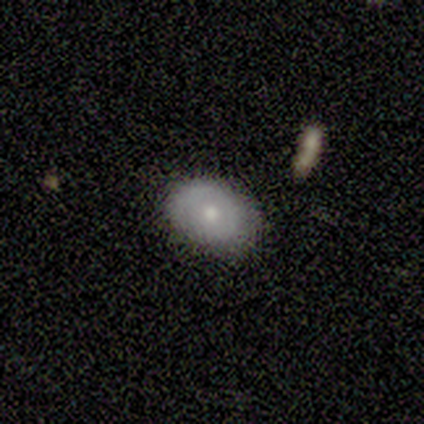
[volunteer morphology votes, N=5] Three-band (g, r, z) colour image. It shows a featured or disk galaxy (60%) with no bar (67%), 2 (67%) tight (67%) spiral arms (100%) and a moderate central bulge (67%). Merging: none (60%).